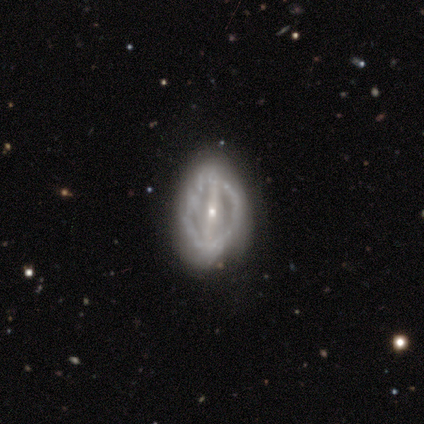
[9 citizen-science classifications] Morphology: type=featured or disk (89%); edge-on=no (100%); bar=strong (50%); spiral arms=no (75%); bulge=small (100%); merging=none (75%).